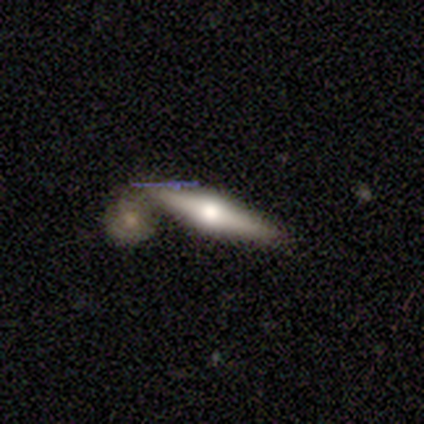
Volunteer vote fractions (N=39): Smooth or featured: featured or disk — 72% (smooth — 21%)
Edge-on disk: yes — 96% (no — 4%)
Edge-on bulge: rounded — 96% (none — 4%)
Merging: none — 50% (merger — 31%)